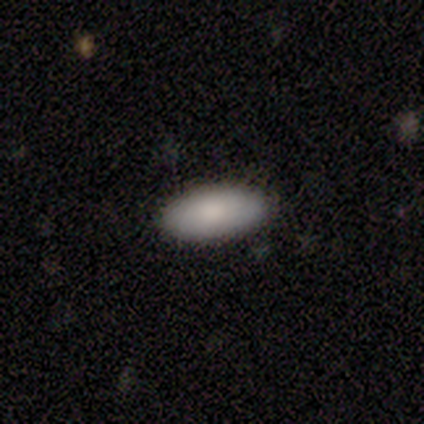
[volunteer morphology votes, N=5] Smooth or featured? 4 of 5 (80%) said smooth. How rounded? 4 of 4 (100%) said in between. Merging? 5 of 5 (100%) said none.